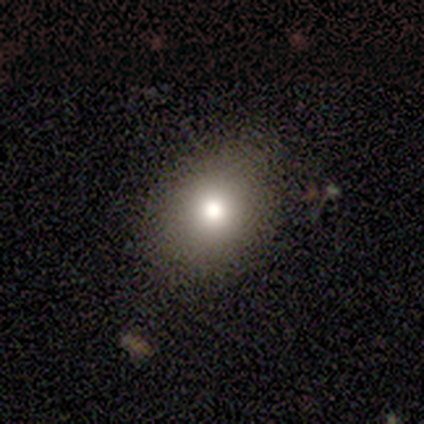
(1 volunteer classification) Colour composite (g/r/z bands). It shows a star or artifact, not a galaxy (100%).